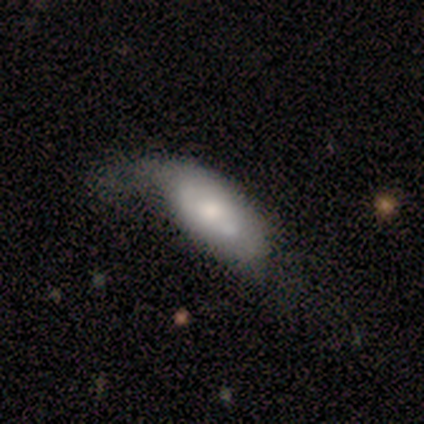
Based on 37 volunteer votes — Overall: smooth (59%; featured or disk 32%). How rounded: in between (95%). Merging: major disturbance (32%; minor disturbance 29%).